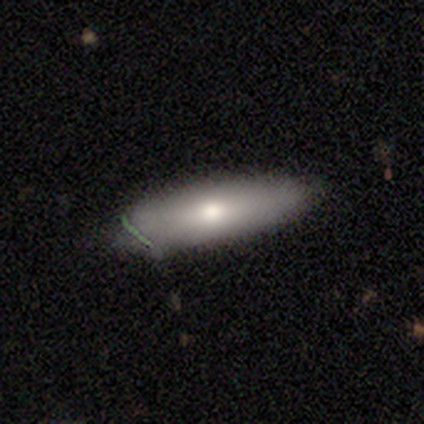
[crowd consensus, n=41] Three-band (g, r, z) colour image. It shows a smooth galaxy with no disk features (68%) that is in between round and cigar-shaped (61%). Merging: none (94%).